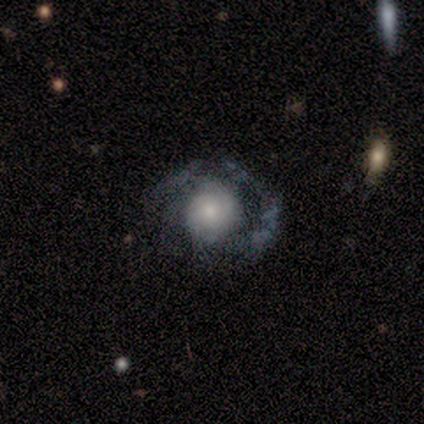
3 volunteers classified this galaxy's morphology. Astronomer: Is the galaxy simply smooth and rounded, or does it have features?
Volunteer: smooth — 33%, tied with featured or disk and star or artifact at 33%.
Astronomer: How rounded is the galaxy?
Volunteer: in between — 100%.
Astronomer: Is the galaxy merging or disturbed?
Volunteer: none — 50%, tied with major disturbance at 50%.